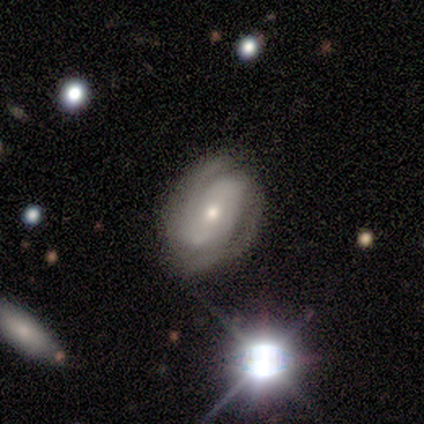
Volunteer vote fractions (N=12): featured or disk 83%, smooth 17%, star or artifact 0%. Down the decision tree: edge-on disk — no (100%); bar — no (70%); spiral arms — yes (100%); spiral arm count — 2 (80%); spiral winding — tight (70%); bulge size — moderate (50%, tied with small); merging — none (83%).